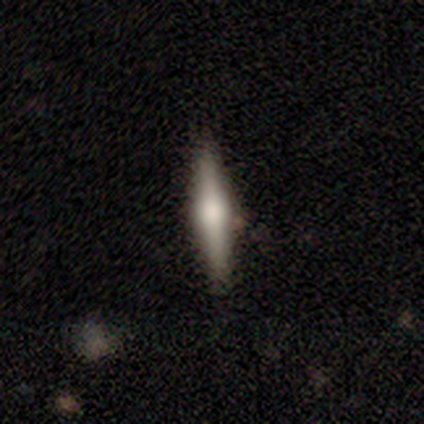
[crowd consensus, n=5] Smooth or featured? 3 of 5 (60%) said smooth. How rounded? 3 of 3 (100%) said cigar-shaped. Merging? 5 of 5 (100%) said none.